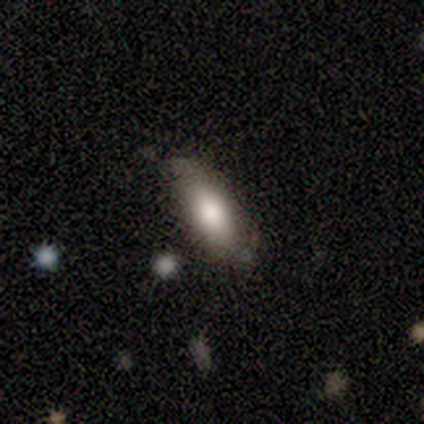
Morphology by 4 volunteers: Volunteers were most divided on "merging": none: 75%, minor disturbance: 25%, major disturbance: 0%, merger: 0%. More confident: smooth or featured — smooth (100%); how rounded — in between (100%).